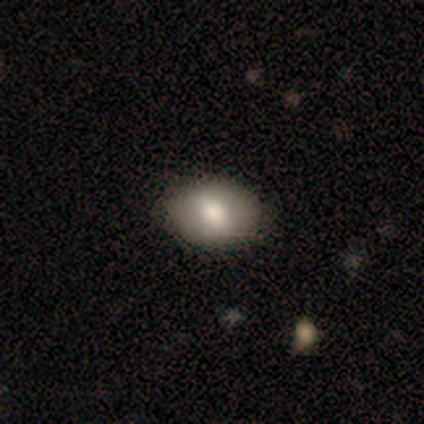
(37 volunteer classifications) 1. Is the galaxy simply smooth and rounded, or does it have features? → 78% smooth, 19% featured or disk, 3% star or artifact.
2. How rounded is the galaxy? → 83% in between, 17% round, 0% cigar-shaped.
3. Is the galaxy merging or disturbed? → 83% none, 17% minor disturbance, 0% major disturbance, 0% merger.